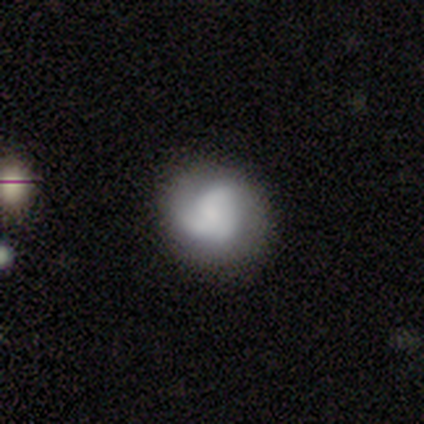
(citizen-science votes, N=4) This is possibly a featured or disk galaxy (50%). It is clearly not viewed edge-on (100%). Bar: clearly no (100%). Spiral arm pattern: possibly yes (50%, tied with no). Spiral arm count: clearly 2 (100%). Spiral winding: clearly tight (100%). Central bulge: possibly large (50%, tied with moderate). Merging: clearly none (100%).